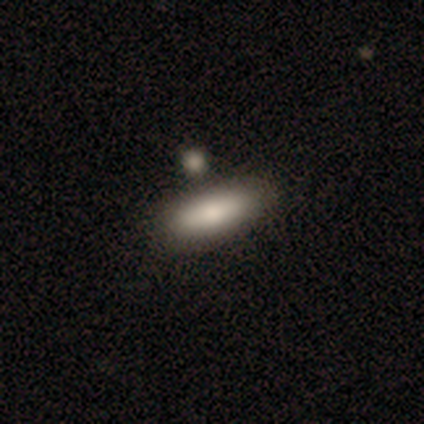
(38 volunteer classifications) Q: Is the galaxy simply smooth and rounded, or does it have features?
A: smooth — 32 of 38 (84%).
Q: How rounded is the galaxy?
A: in between — 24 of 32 (75%).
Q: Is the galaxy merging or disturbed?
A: none — 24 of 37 (65%).